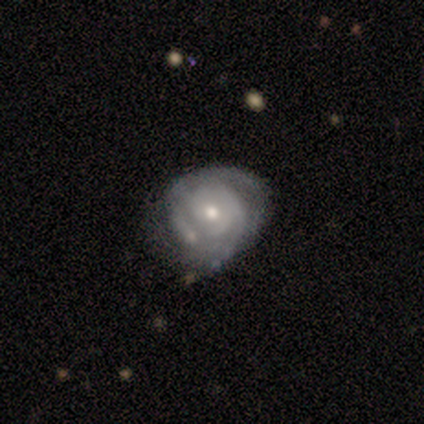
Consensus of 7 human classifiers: Smooth or featured?
  - featured or disk: 71% *
  - smooth: 14%
  - star or artifact: 14%
Edge-on disk?
  - no: 100% *
  - yes: 0%
Bar?
  - no: 80% *
  - weak: 20%
  - strong: 0%
Spiral arms?
  - yes: 100% *
  - no: 0%
Spiral winding?
  - tight: 80% *
  - medium: 20%
  - loose: 0%
Spiral arm count?
  - 3: 40% * (tied)
  - can't tell: 40% * (tied)
  - 2: 20%
  - 1: 0%
  - 4: 0%
  - more than 4: 0%
Bulge size?
  - moderate: 80% *
  - small: 20%
  - dominant: 0%
  - large: 0%
  - none: 0%
Merging?
  - none: 50% * (tied)
  - minor disturbance: 50% * (tied)
  - major disturbance: 0%
  - merger: 0%